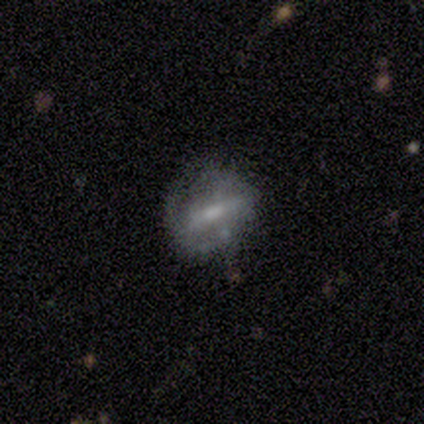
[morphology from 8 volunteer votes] Smooth or featured?
  - smooth: 38% * (tied)
  - featured or disk: 38% * (tied)
  - star or artifact: 25%
How rounded?
  - in between: 100% *
  - round: 0%
  - cigar-shaped: 0%
Merging?
  - none: 67% *
  - minor disturbance: 17%
  - major disturbance: 17%
  - merger: 0%